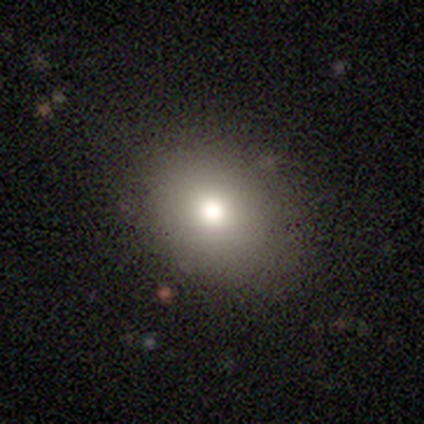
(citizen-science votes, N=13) This appears to be a smooth galaxy with no disk features (85%) that is round (55%). Merging: none (83%).